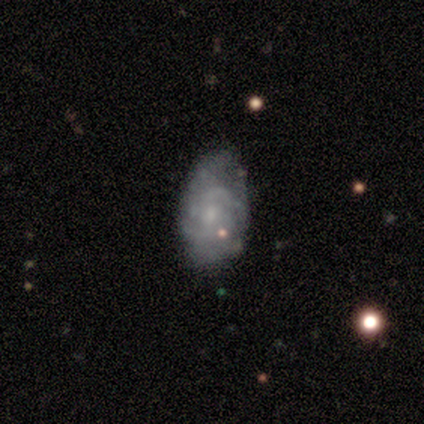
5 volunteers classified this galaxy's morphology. Smooth or featured?
  - featured or disk: 80% *
  - star or artifact: 20%
  - smooth: 0%
Edge-on disk?
  - no: 100% *
  - yes: 0%
Bar?
  - no: 75% *
  - weak: 25%
  - strong: 0%
Spiral arms?
  - yes: 50% * (tied)
  - no: 50% * (tied)
Spiral winding?
  - tight: 50% * (tied)
  - medium: 50% * (tied)
  - loose: 0%
Spiral arm count?
  - 4: 50% * (tied)
  - can't tell: 50% * (tied)
  - 1: 0%
  - 2: 0%
  - 3: 0%
  - more than 4: 0%
Bulge size?
  - none: 50% *
  - moderate: 25%
  - small: 25%
  - dominant: 0%
  - large: 0%
Merging?
  - none: 75% *
  - minor disturbance: 25%
  - major disturbance: 0%
  - merger: 0%